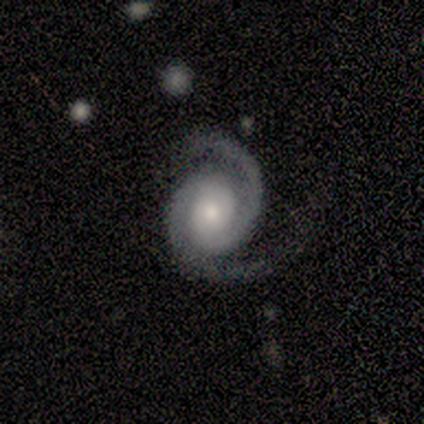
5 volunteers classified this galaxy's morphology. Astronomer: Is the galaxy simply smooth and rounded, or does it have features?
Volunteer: featured or disk — 100%.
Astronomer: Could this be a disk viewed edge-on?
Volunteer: no — 100%.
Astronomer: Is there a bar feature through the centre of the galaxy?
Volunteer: no — 100%.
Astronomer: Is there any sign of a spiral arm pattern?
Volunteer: yes — 100%.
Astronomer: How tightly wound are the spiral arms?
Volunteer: tight — 40%, tied with medium at 40%.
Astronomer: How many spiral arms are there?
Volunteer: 2 — 100%.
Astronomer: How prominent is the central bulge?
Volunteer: moderate — 60%.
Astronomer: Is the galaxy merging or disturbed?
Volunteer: none — 80%.